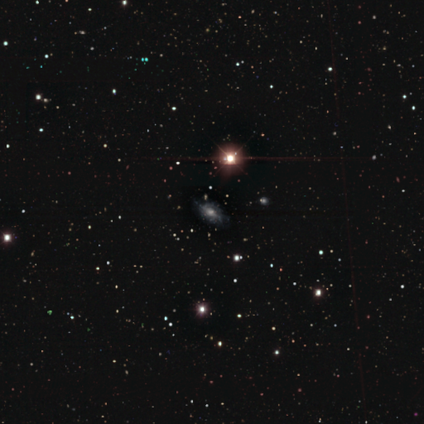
Smooth or featured: featured or disk — 40% (tied with star or artifact — 40%)
Edge-on disk: yes — 50% (tied with no — 50%)
Edge-on bulge: rounded — 100%
Merging: minor disturbance — 67% (none — 33%)